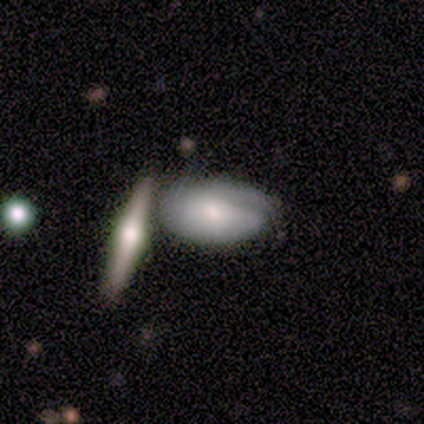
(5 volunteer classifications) This is clearly a smooth galaxy (80%). How rounded: clearly in between (100%). Merging: marginally merger (40%).